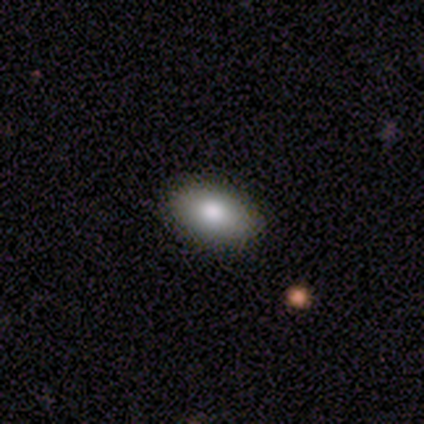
Volunteers were most divided on "smooth or featured": smooth: 85%, featured or disk: 10%, star or artifact: 5%. More confident: merging — none (95%); how rounded — in between (88%).